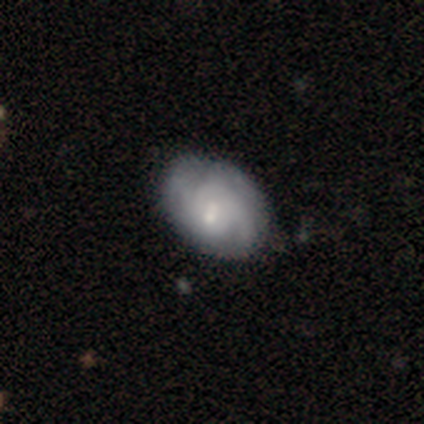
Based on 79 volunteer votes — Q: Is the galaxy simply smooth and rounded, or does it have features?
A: featured or disk — 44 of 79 (56%).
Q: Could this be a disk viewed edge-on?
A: no — 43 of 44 (98%).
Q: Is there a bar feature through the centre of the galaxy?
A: no — 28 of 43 (65%).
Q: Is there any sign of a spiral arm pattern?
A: yes — 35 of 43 (81%).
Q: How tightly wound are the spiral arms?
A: tight — 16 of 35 (46%).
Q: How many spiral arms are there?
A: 2 — 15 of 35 (43%, tied with can't tell).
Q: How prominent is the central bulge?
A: small — 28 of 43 (65%).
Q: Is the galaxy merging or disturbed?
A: none — 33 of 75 (44%).